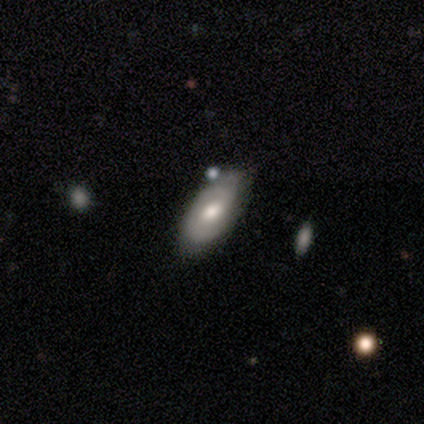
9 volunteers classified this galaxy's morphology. Q: Smooth or featured?
A: smooth (56%); runner-up: featured or disk (44%)
Q: How rounded?
A: in between (100%)
Q: Merging?
A: none (89%); runner-up: minor disturbance (11%)